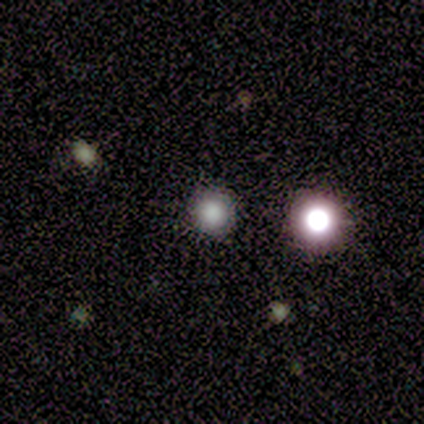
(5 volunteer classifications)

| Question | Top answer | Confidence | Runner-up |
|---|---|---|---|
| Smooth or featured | smooth | 80% | star or artifact (20%) |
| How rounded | round | 75% | in between (25%) |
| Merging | none | 100% | — |